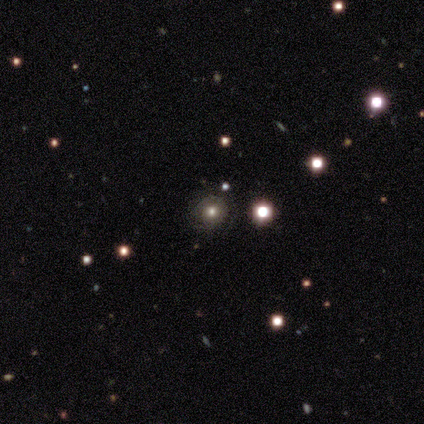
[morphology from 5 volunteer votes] Smooth or featured?
  - smooth: 40% * (tied)
  - star or artifact: 40% * (tied)
  - featured or disk: 20%
How rounded?
  - round: 100% *
  - in between: 0%
  - cigar-shaped: 0%
Merging?
  - none: 100% *
  - minor disturbance: 0%
  - major disturbance: 0%
  - merger: 0%